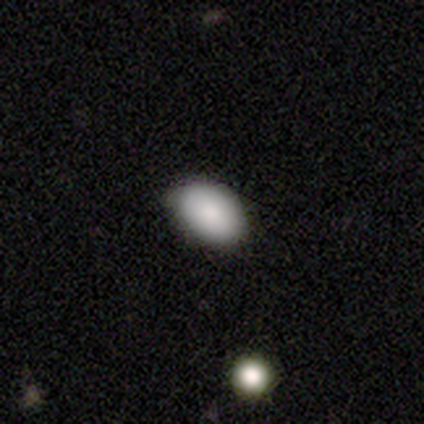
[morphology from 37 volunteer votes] Volunteers were most divided on "smooth or featured": smooth: 86%, star or artifact: 8%, featured or disk: 5%. More confident: how rounded — in between (97%); merging — none (88%).